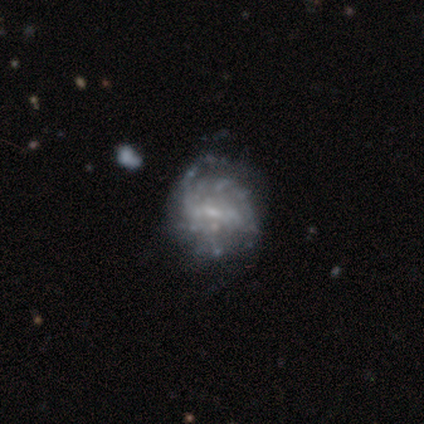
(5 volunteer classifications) Volunteers were most divided on "bar": weak: 67%, no: 33%, strong: 0%. More confident: edge-on disk — no (100%); spiral winding — tight (100%); spiral arm count — can't tell (100%); bulge size — small (100%); merging — none (75%); spiral arms — yes (67%); smooth or featured — featured or disk (60%).